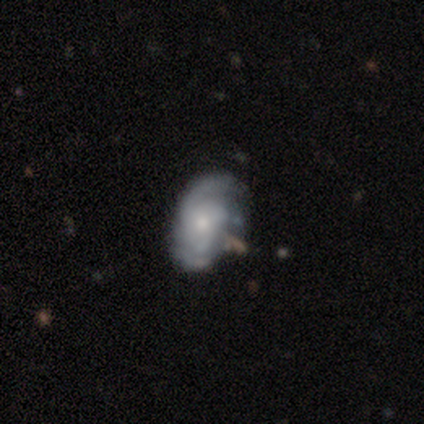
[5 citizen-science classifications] Morphology: type=featured or disk (100%); edge-on=no (100%); bar=no (60%); spiral arms=yes (100%); winding=medium (60%); arm count=2 (60%); bulge=moderate (40%, tied with small); merging=none (60%).